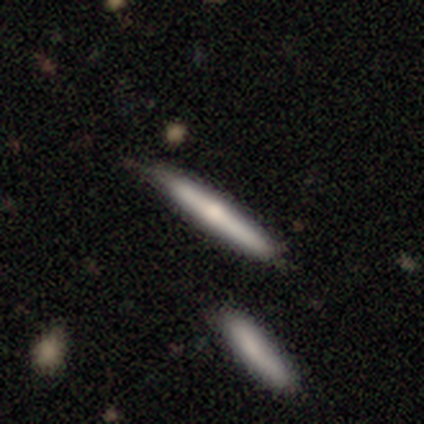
smooth_or_featured: smooth (p=0.62) [alt: featured or disk p=0.31]
how_rounded: cigar-shaped (p=0.98) [alt: in between p=0.02]
merging: none (p=0.76) [alt: minor disturbance p=0.20]